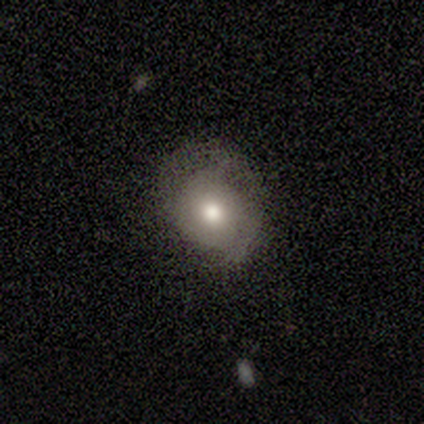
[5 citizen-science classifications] This appears to be a smooth galaxy with no disk features (40%, tied with featured or disk) that is round (100%). Merging: none (50%, tied with minor disturbance).